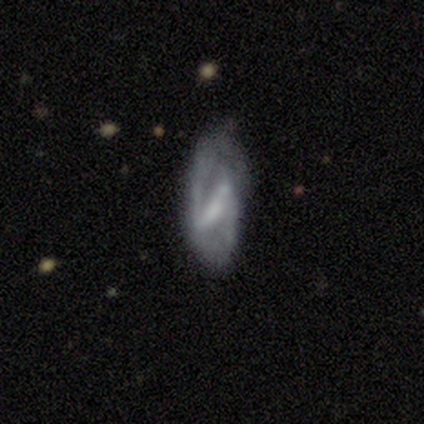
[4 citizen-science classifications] Smooth or featured: featured or disk — 75% (star or artifact — 25%)
Edge-on disk: no — 100%
Bar: strong — 67% (weak — 33%)
Spiral arms: yes — 67% (no — 33%)
Spiral winding: medium — 100%
Spiral arm count: 2 — 100%
Bulge size: small — 67% (none — 33%)
Merging: none — 100%